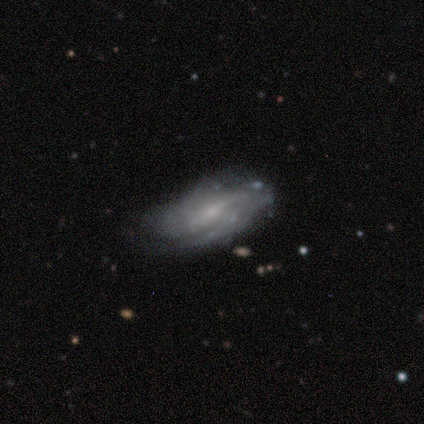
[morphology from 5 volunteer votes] smooth_or_featured: featured or disk (p=0.60) [alt: smooth p=0.40]
disk_edge_on: no (p=1.00)
bar: strong (p=0.33) [tied with: weak p=0.33, no p=0.33]
has_spiral_arms: yes (p=1.00)
spiral_winding: tight (p=0.67) [alt: loose p=0.33]
spiral_arm_count: 2 (p=0.67) [alt: can't tell p=0.33]
bulge_size: moderate (p=0.67) [alt: none p=0.33]
merging: none (p=0.60) [alt: minor disturbance p=0.20]